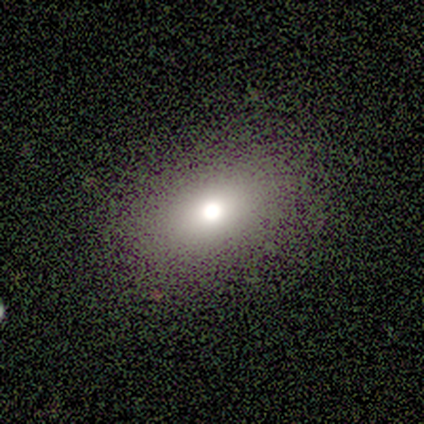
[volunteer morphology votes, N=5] Q: Smooth or featured?
A: smooth (100%)
Q: How rounded?
A: in between (80%); runner-up: round (20%)
Q: Merging?
A: none (100%)